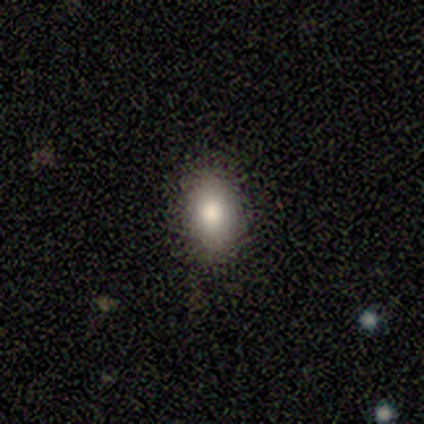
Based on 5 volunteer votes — Smooth or featured: smooth — 60% (featured or disk — 40%)
How rounded: in between — 67% (round — 33%)
Merging: none — 80% (minor disturbance — 20%)